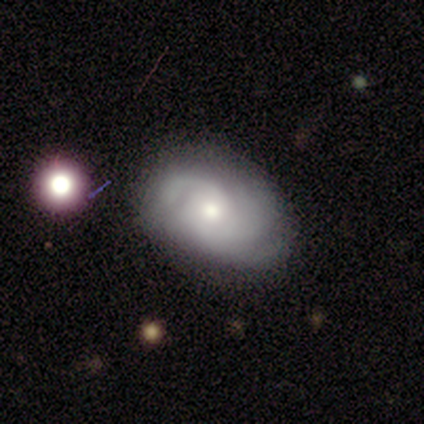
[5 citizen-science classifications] A featured or disk galaxy (80%) with no bar (100%), 3 (33%, tied with more than 4 and can't tell) tight (100%) spiral arms (100%) and a small central bulge (100%). Merging: none (75%).